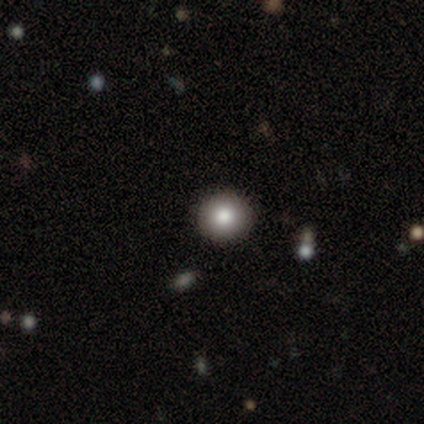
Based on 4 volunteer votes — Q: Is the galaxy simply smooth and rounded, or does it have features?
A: smooth — 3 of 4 (75%).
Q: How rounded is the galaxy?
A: round — 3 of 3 (100%).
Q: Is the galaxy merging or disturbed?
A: none — 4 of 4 (100%).